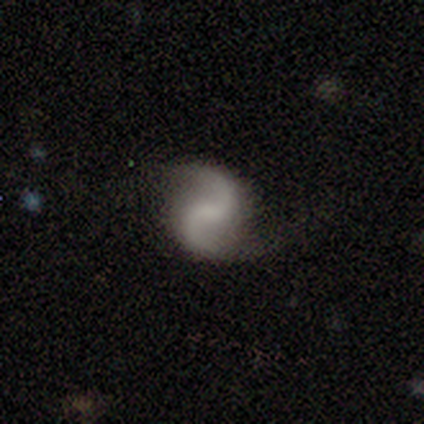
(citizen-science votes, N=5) Volunteers were most divided on "bar": weak: 50%, strong: 25%, no: 25%. More confident: edge-on disk — no (100%); spiral arms — yes (100%); spiral arm count — 2 (100%); smooth or featured — featured or disk (80%); spiral winding — loose (75%); bulge size — small (75%); merging — none (75%).